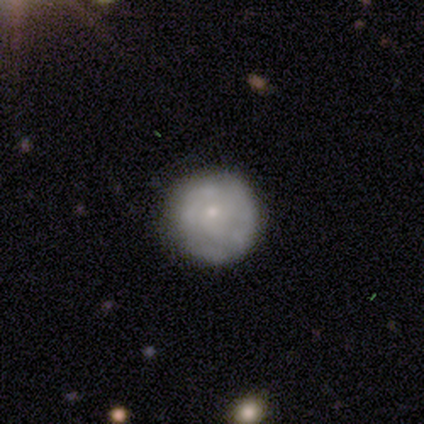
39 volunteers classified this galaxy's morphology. smooth_or_featured: featured or disk (p=0.54) [alt: smooth p=0.41]
disk_edge_on: no (p=0.95) [alt: yes p=0.05]
bar: no (p=0.75) [alt: weak p=0.15]
has_spiral_arms: yes (p=0.65) [alt: no p=0.35]
spiral_winding: tight (p=0.77) [alt: medium p=0.15]
spiral_arm_count: can't tell (p=0.62) [alt: 4 p=0.15]
bulge_size: small (p=0.80) [alt: moderate p=0.10]
merging: none (p=0.76) [alt: minor disturbance p=0.19]